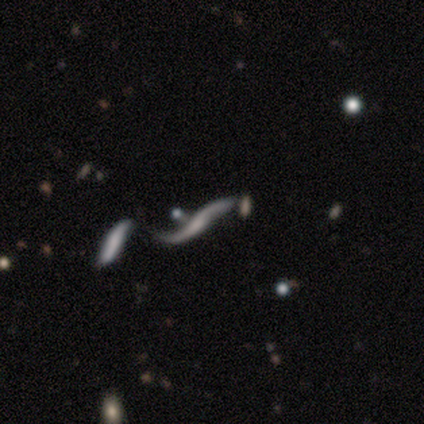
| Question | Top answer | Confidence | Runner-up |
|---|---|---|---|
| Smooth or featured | featured or disk | 80% | smooth (20%) |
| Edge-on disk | yes | 50% | tied: no (50%) |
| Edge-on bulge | boxy | 50% | tied: none (50%) |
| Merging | none | 40% | tied: merger (40%) |